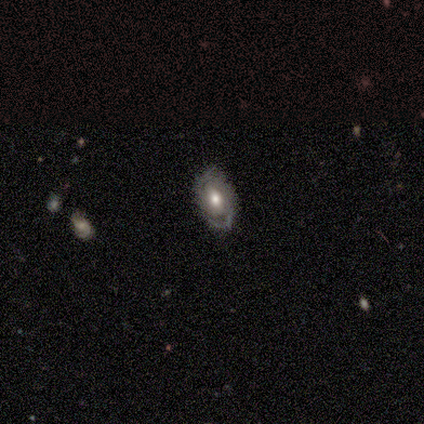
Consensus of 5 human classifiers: Volunteers were most divided on "spiral winding" (2-way tie): tight: 40%, medium: 40%, loose: 20%. More confident: smooth or featured — featured or disk (100%); edge-on disk — no (100%); spiral arms — yes (100%); spiral arm count — 2 (80%); merging — none (80%); bar — no (60%); bulge size — moderate (60%).